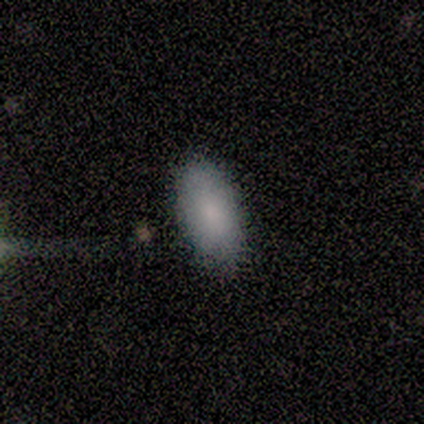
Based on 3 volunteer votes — Smooth or featured: smooth — 100%
How rounded: in between — 100%
Merging: none — 100%